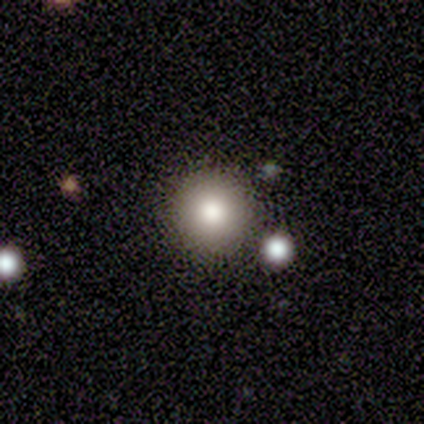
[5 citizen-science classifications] Overall: star or artifact (60%; smooth 40%).